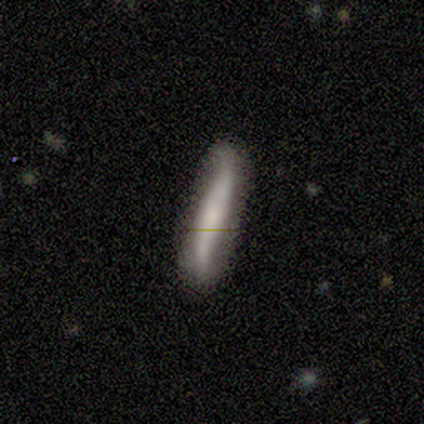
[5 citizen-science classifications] A smooth galaxy with no disk features (100%) that is cigar-shaped (80%). Merging: none (60%).